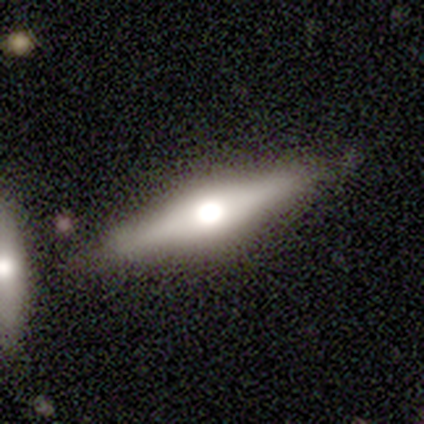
This is possibly a smooth galaxy (50%, tied with featured or disk). How rounded: clearly cigar-shaped (100%). Merging: likely none (75%).